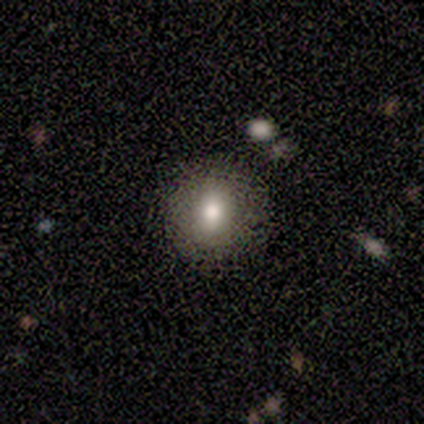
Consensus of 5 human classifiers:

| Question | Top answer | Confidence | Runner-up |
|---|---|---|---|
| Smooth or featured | smooth | 100% | — |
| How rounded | round | 60% | in between (40%) |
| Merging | none | 100% | — |